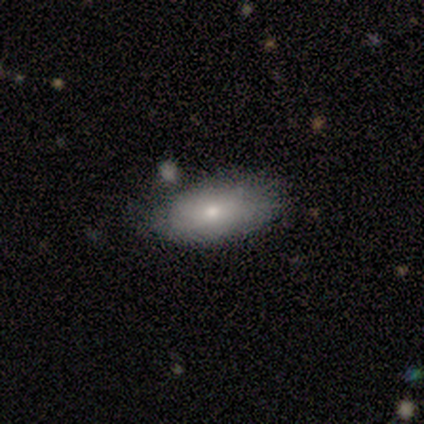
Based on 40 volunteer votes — A smooth galaxy with no disk features (72%) that is in between round and cigar-shaped (93%). Merging: none (62%).